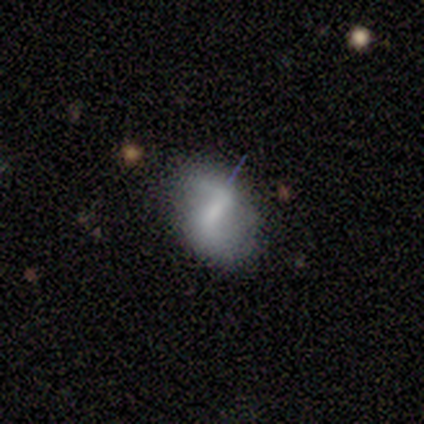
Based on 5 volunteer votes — A featured or disk galaxy (60%) with a strong bar (100%), 2 (100%) loose (67%) spiral arms (100%) and a dominant central bulge (33%, tied with moderate and small).

Vote fractions:
- Smooth or featured? featured or disk: 60% / smooth: 40% / star or artifact: 0%
- Edge-on disk? no: 100% / yes: 0%
- Bar? strong: 100% / weak: 0% / no: 0%
- Spiral arms? yes: 100% / no: 0%
- Spiral winding? loose: 67% / medium: 33% / tight: 0%
- Spiral arm count? 2: 100% / 1: 0% / 3: 0% / 4: 0% / more than 4: 0% / can't tell: 0%
- Bulge size? dominant: 33% (tied) / moderate: 33% (tied) / small: 33% (tied) / large: 0% / none: 0%
- Merging? none: 80% / minor disturbance: 20% / major disturbance: 0% / merger: 0%